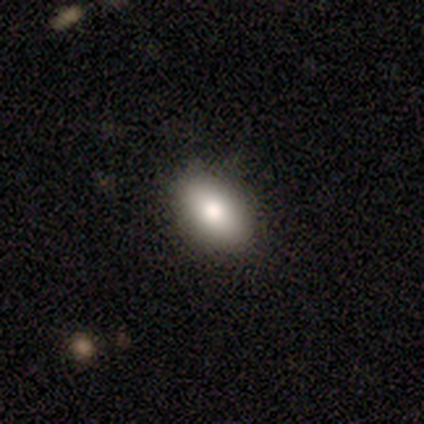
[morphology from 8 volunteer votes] This appears to be a smooth galaxy with no disk features (88%) that is in between round and cigar-shaped (100%). Merging: none (100%).